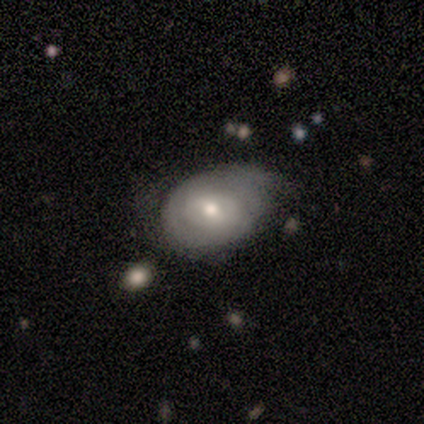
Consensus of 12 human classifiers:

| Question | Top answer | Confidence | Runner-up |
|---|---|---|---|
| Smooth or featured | smooth | 67% | featured or disk (33%) |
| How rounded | in between | 75% | round (25%) |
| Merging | minor disturbance | 58% | none (33%) |